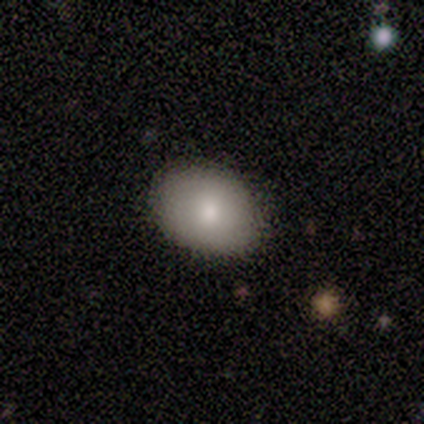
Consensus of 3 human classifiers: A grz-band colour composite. It shows a smooth galaxy with no disk features (100%) that is round (67%). Merging: none (67%).